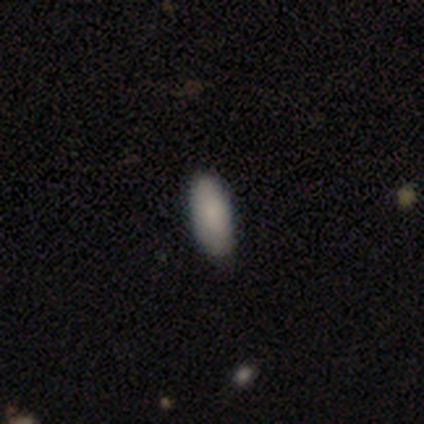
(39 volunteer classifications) A smooth galaxy with no disk features (92%) that is in between round and cigar-shaped (86%).

Vote fractions:
- Smooth or featured? smooth: 92% / featured or disk: 5% / star or artifact: 3%
- How rounded? in between: 86% / cigar-shaped: 14% / round: 0%
- Merging? none: 82% / minor disturbance: 18% / major disturbance: 0% / merger: 0%